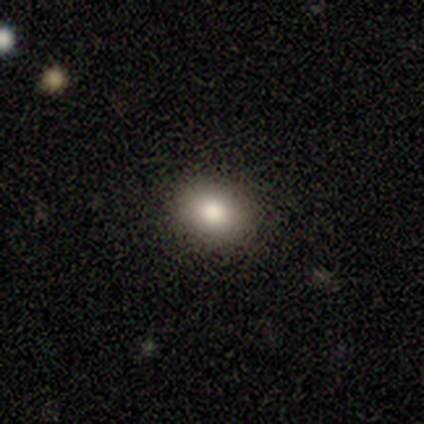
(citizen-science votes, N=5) A smooth galaxy with no disk features (80%) that is round (50%, tied with in between). Merging: none (75%).